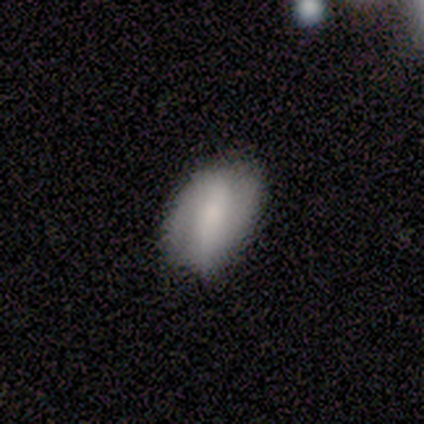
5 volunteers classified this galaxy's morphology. A featured or disk galaxy (80%) with a strong bar (50%), 2 (67%) medium (100%) spiral arms (75%) and a moderate central bulge (75%). Merging: none (80%).